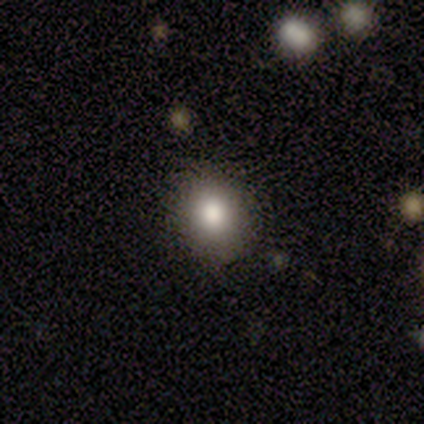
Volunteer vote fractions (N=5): smooth_or_featured: smooth (p=0.80) [alt: star or artifact p=0.20]
how_rounded: round (p=0.50) [tied with: in between p=0.50]
merging: none (p=1.00)